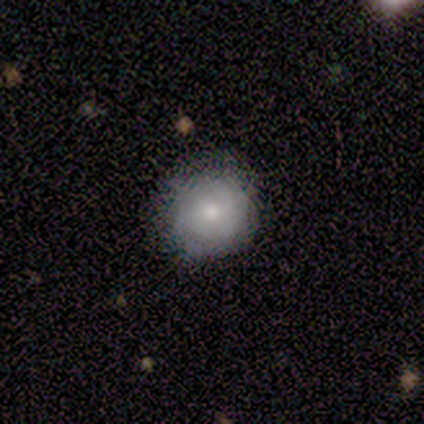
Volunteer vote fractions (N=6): A smooth galaxy with no disk features (67%) that is round (100%).

Vote fractions:
- Smooth or featured? smooth: 67% / featured or disk: 33% / star or artifact: 0%
- How rounded? round: 100% / in between: 0% / cigar-shaped: 0%
- Merging? none: 100% / minor disturbance: 0% / major disturbance: 0% / merger: 0%